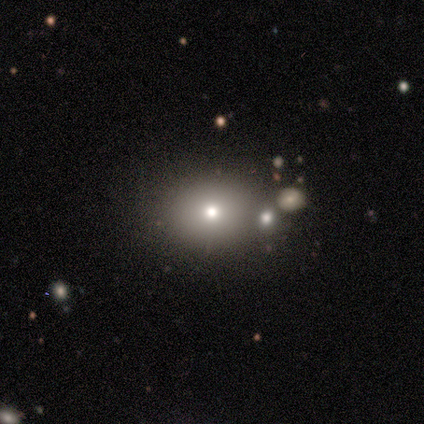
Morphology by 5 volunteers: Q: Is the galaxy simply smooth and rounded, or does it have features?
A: smooth — 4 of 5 (80%).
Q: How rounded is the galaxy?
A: round — 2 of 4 (50%, tied with in between).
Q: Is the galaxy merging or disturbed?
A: none — 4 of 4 (100%).